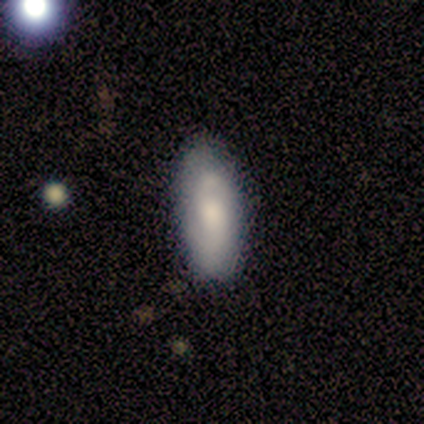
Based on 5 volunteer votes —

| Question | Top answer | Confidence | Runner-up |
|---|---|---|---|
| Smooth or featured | smooth | 60% | featured or disk (40%) |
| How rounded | in between | 100% | — |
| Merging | none | 80% | minor disturbance (20%) |